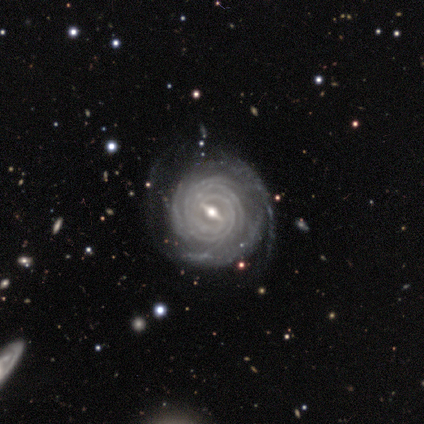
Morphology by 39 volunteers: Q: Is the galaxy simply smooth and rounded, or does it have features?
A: featured or disk — 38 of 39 (97%).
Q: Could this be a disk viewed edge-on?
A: no — 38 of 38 (100%).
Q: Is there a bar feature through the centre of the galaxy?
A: strong — 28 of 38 (74%).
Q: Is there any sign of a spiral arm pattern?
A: yes — 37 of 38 (97%).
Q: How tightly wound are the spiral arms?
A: tight — 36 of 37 (97%).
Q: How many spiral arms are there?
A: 4 — 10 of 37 (27%).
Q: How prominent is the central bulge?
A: moderate — 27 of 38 (71%).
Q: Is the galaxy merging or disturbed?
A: none — 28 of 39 (72%).